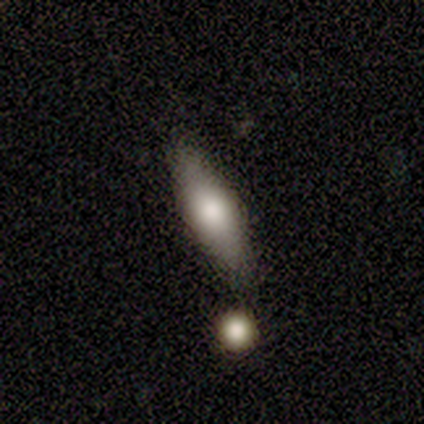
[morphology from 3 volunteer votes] Overall: smooth (67%; featured or disk 33%). How rounded: cigar-shaped (100%). Merging: none (100%).